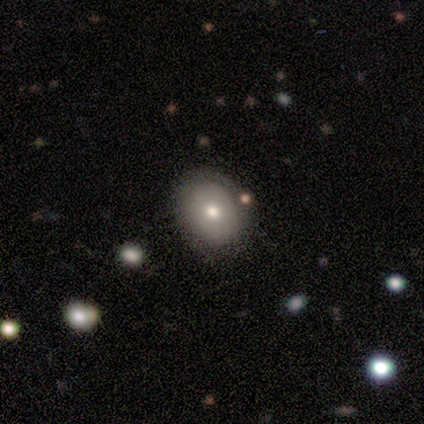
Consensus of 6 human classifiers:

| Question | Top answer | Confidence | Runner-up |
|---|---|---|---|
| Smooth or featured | smooth | 67% | featured or disk (33%) |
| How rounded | in between | 75% | round (25%) |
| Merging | none | 83% | minor disturbance (17%) |